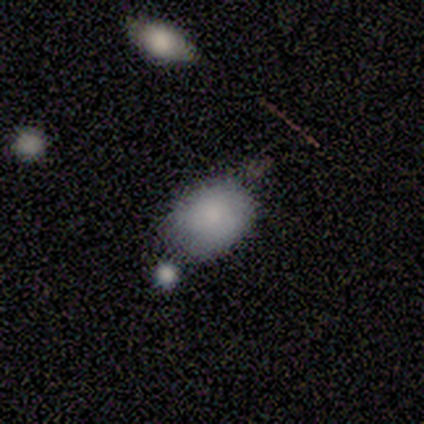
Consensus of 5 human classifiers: Smooth or featured?
  - smooth: 60% *
  - featured or disk: 40%
  - star or artifact: 0%
How rounded?
  - in between: 67% *
  - round: 33%
  - cigar-shaped: 0%
Merging?
  - none: 60% *
  - minor disturbance: 40%
  - major disturbance: 0%
  - merger: 0%